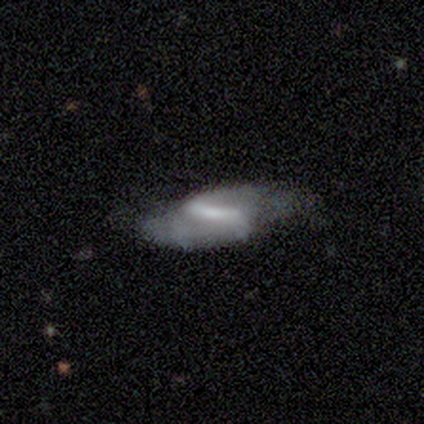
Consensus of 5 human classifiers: Smooth or featured?
  - featured or disk: 100% *
  - smooth: 0%
  - star or artifact: 0%
Edge-on disk?
  - no: 100% *
  - yes: 0%
Bar?
  - strong: 80% *
  - weak: 20%
  - no: 0%
Spiral arms?
  - yes: 100% *
  - no: 0%
Spiral winding?
  - tight: 40% * (tied)
  - medium: 40% * (tied)
  - loose: 20%
Spiral arm count?
  - 2: 80% *
  - 1: 20%
  - 3: 0%
  - 4: 0%
  - more than 4: 0%
  - can't tell: 0%
Bulge size?
  - none: 60% *
  - large: 20%
  - small: 20%
  - dominant: 0%
  - moderate: 0%
Merging?
  - minor disturbance: 40% * (tied)
  - major disturbance: 40% * (tied)
  - none: 20%
  - merger: 0%